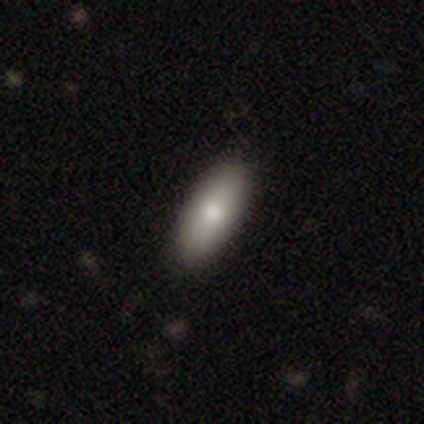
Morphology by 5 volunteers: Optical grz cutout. It shows a smooth galaxy with no disk features (100%) that is in between round and cigar-shaped (100%). Merging: none (100%).